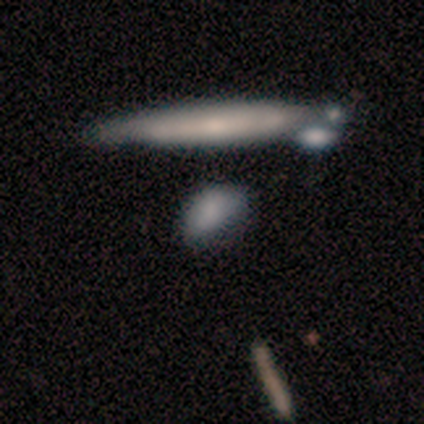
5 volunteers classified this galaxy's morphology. Smooth or featured? smooth (80%)
How rounded? in between (100%)
Merging? minor disturbance (60%)